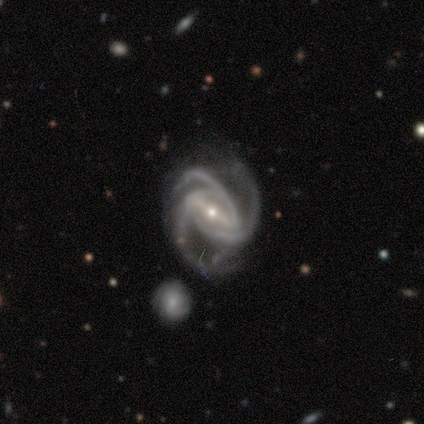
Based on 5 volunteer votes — This appears to be a featured or disk galaxy (100%) with a strong bar (80%), 3 (80%) medium (80%) spiral arms (100%) and a small central bulge (60%). Merging: none (60%).